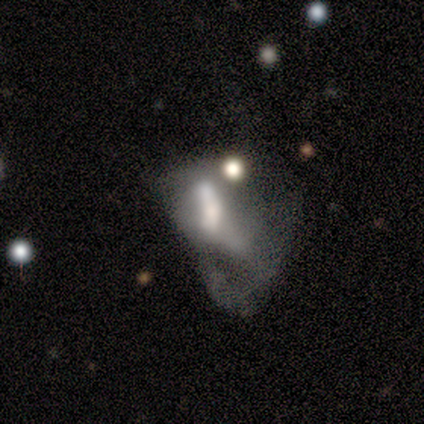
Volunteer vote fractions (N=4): Q: Smooth or featured?
A: featured or disk (75%); runner-up: smooth (25%)
Q: Edge-on disk?
A: no (100%)
Q: Bar?
A: no (67%); runner-up: strong (33%)
Q: Spiral arms?
A: no (100%)
Q: Bulge size?
A: moderate (67%); runner-up: none (33%)
Q: Merging?
A: merger (75%); runner-up: major disturbance (25%)